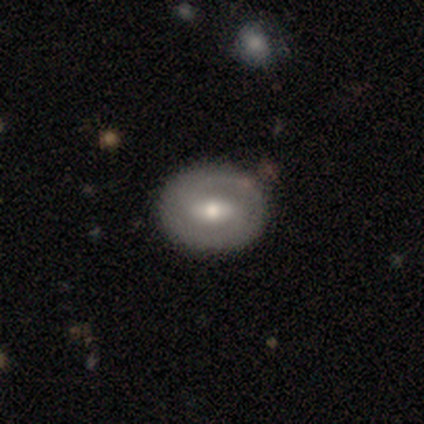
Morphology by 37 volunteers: This is possibly a featured or disk galaxy (51%). It is clearly not viewed edge-on (100%). Bar: possibly weak (47%). Spiral arm pattern: possibly yes (53%). Spiral arm count: clearly 2 (90%). Spiral winding: likely tight (70%). Central bulge: likely moderate (74%). Merging: clearly none (97%).